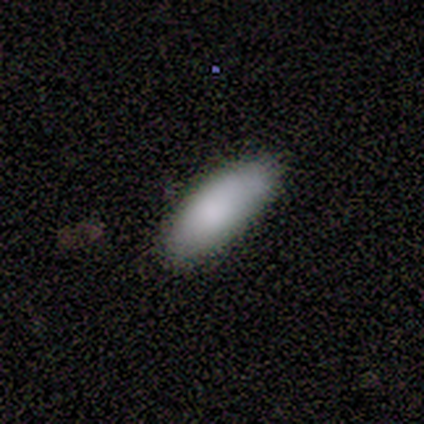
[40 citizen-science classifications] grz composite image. It shows a smooth galaxy with no disk features (92%) that is in between round and cigar-shaped (84%). Merging: none (82%).